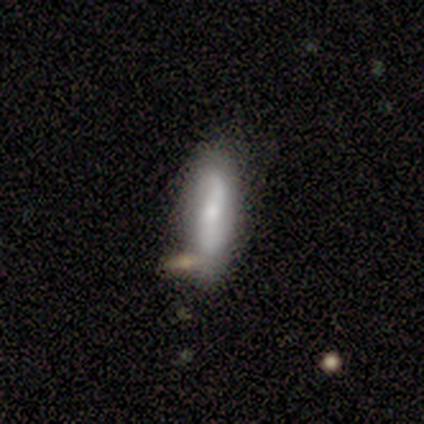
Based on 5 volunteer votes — Q: Smooth or featured?
A: smooth (60%); runner-up: featured or disk (20%)
Q: How rounded?
A: cigar-shaped (67%); runner-up: in between (33%)
Q: Merging?
A: none (50%); tied with: merger (50%)